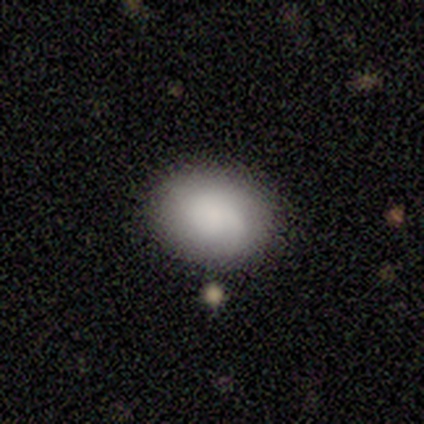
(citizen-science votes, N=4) smooth_or_featured: smooth (p=1.00)
how_rounded: in between (p=0.75) [alt: round p=0.25]
merging: none (p=1.00)